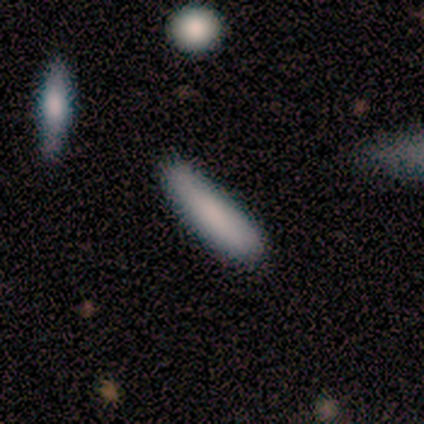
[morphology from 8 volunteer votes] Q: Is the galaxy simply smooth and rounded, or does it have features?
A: smooth — 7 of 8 (88%).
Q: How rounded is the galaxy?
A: cigar-shaped — 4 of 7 (57%).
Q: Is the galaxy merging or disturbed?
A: none — 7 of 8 (88%).